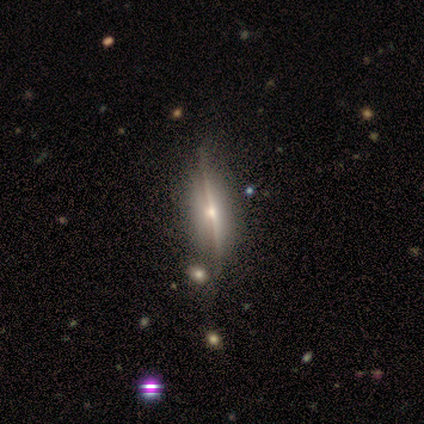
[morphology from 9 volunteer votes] type=featured or disk (56%); edge-on=yes (80%); edge-on bulge=rounded (75%); merging=none (89%).